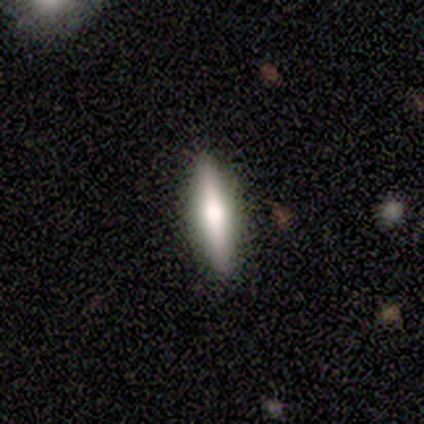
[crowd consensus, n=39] Morphology: type=smooth (49%); roundness=cigar-shaped (53%); merging=none (95%).